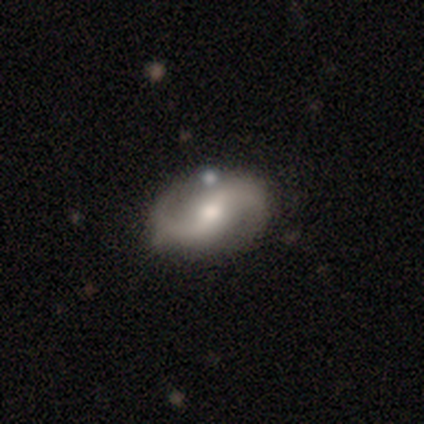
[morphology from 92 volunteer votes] This appears to be a featured or disk galaxy (83%) with a weak bar (49%), 2 (97%) loose (63%) spiral arms (93%) and a moderate central bulge (73%). Merging: none (77%).